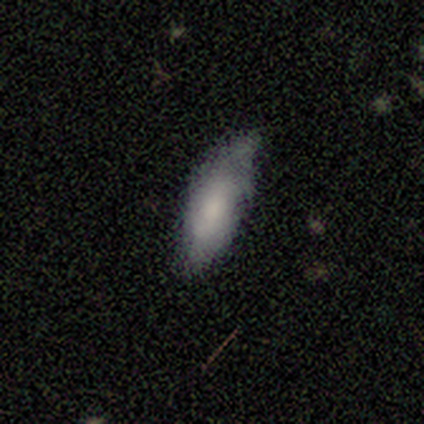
Smooth or featured?
  - smooth: 83% *
  - featured or disk: 17%
  - star or artifact: 0%
How rounded?
  - in between: 83% *
  - cigar-shaped: 17%
  - round: 0%
Merging?
  - none: 64% *
  - minor disturbance: 31%
  - major disturbance: 6%
  - merger: 0%